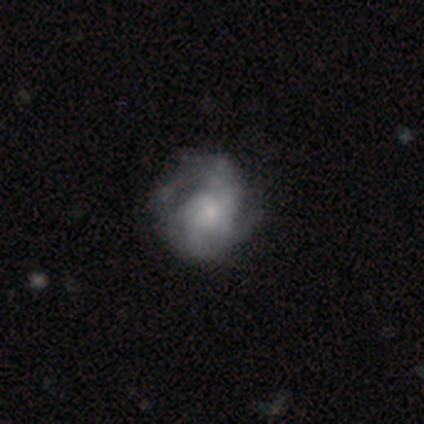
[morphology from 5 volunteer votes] Smooth or featured? 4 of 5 (80%) said smooth. How rounded? 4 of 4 (100%) said round. Merging? 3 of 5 (60%) said minor disturbance.